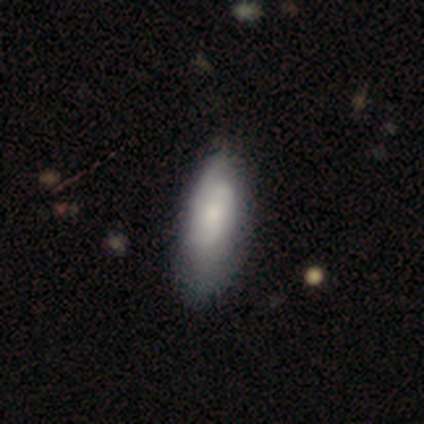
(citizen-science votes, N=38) Smooth or featured?
  - smooth: 58% *
  - featured or disk: 37%
  - star or artifact: 5%
How rounded?
  - in between: 73% *
  - cigar-shaped: 23%
  - round: 5%
Merging?
  - none: 28% *
  - minor disturbance: 19%
  - major disturbance: 8%
  - merger: 0%